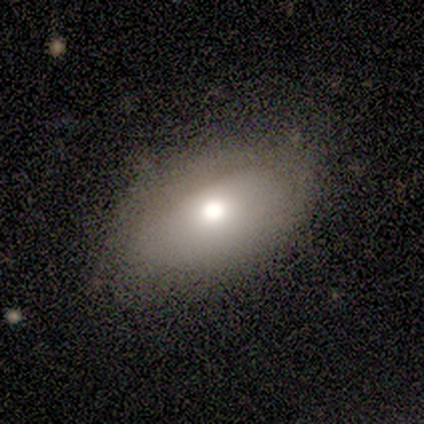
This is clearly a smooth galaxy (80%). How rounded: clearly in between (100%). Merging: likely none (60%).